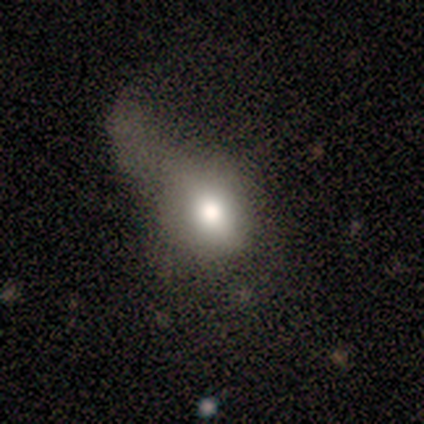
smooth 80%, featured or disk 20%, star or artifact 0%. Down the decision tree: how rounded — in between (75%); merging — major disturbance (60%).